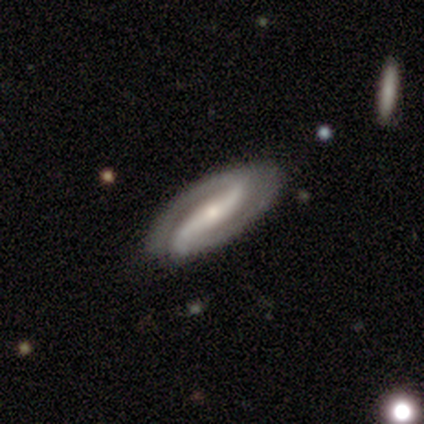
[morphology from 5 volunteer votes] Overall: featured or disk (100%). Edge-on disk: no (80%). Bar: strong (50%; weak 25%). Spiral arms: yes (100%). Spiral arm count: 2 (75%). Spiral winding: medium (50%, tied with loose). Bulge size: moderate (75%). Merging: none (60%; minor disturbance 40%).